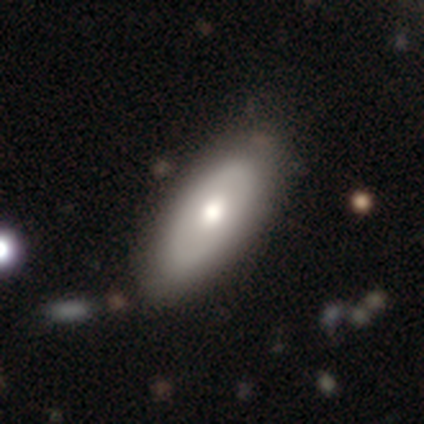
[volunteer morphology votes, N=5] Smooth or featured: featured or disk — 60% (smooth — 40%)
Edge-on disk: no — 100%
Bar: no — 100%
Spiral arms: no — 100%
Bulge size: moderate — 100%
Merging: none — 100%